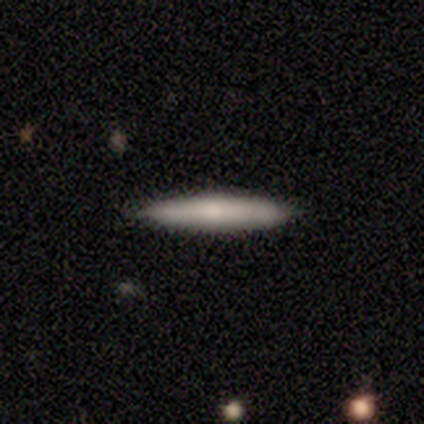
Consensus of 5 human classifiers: smooth 60%, featured or disk 20%, star or artifact 20%. Down the decision tree: how rounded — cigar-shaped (100%); merging — none (75%).